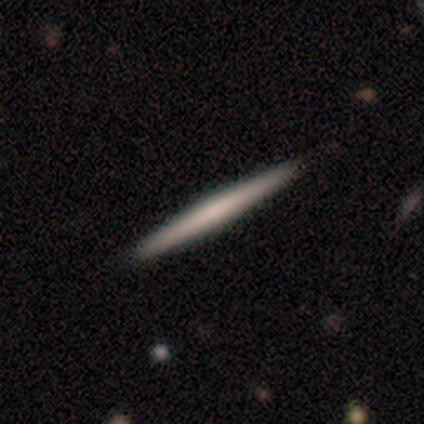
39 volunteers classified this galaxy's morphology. Smooth or featured: smooth — 59% (featured or disk — 41%)
How rounded: cigar-shaped — 100%
Merging: none — 95% (minor disturbance — 3%)